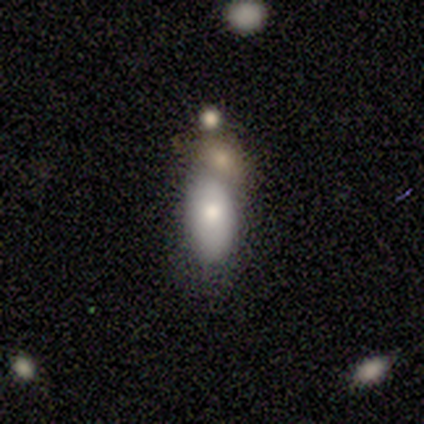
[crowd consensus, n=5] smooth 80%, star or artifact 20%, featured or disk 0%. Down the decision tree: how rounded — in between (75%); merging — merger (100%).